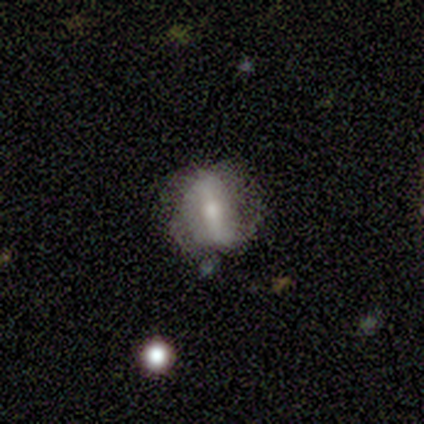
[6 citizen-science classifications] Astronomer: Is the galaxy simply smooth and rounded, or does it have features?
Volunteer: featured or disk — 67%.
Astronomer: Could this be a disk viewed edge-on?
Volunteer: no — 100%.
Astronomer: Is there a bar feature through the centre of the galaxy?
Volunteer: strong — 75%.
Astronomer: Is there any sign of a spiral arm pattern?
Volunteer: no — 75%.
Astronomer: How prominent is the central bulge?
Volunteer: moderate — 75%.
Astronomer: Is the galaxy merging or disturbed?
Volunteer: none — 83%.